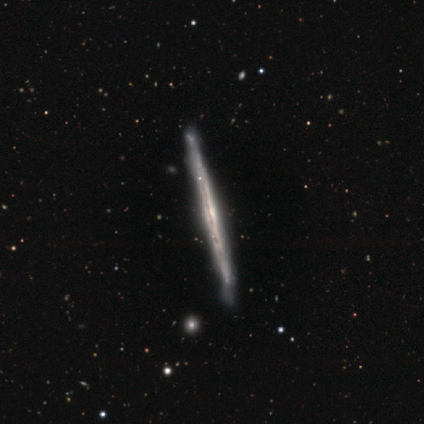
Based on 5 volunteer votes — Volunteers were most divided on "edge-on bulge": none: 75%, rounded: 25%, boxy: 0%. More confident: edge-on disk — yes (100%); merging — none (100%); smooth or featured — featured or disk (80%).